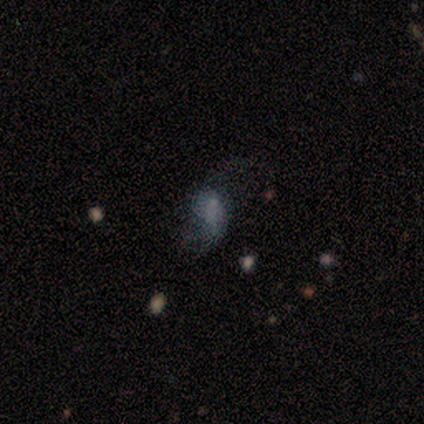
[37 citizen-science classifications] smooth-or-featured: featured or disk: 43% | smooth: 38% | star or artifact: 19%
  disk-edge-on: no: 88% | yes: 12%
    bar: no: 57% | weak: 36% | strong: 7%
    has-spiral-arms: yes: 86% | no: 14%
      spiral-winding: loose: 83% | medium: 17% | tight: 0%
      spiral-arm-count: 2: 83% | 1: 8% | can't tell: 8% | 3: 0% | 4: 0% | more than 4: 0%
    bulge-size: small: 43% (tied) | none: 43% (tied) | large: 7% | moderate: 7% | dominant: 0%
  merging: major disturbance: 53% | none: 33% | minor disturbance: 10% | merger: 3%